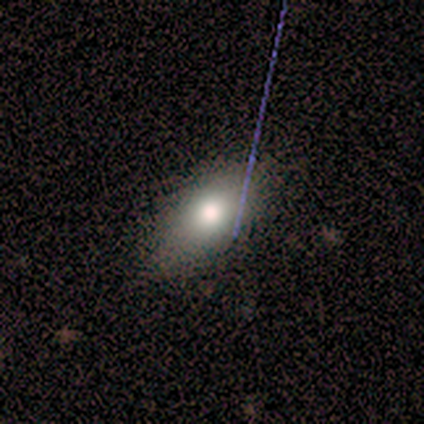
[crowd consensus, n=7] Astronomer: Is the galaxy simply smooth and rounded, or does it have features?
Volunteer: smooth — 71%.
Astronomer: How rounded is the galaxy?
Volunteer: in between — 100%.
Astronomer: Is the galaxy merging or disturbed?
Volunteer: none — 86%.